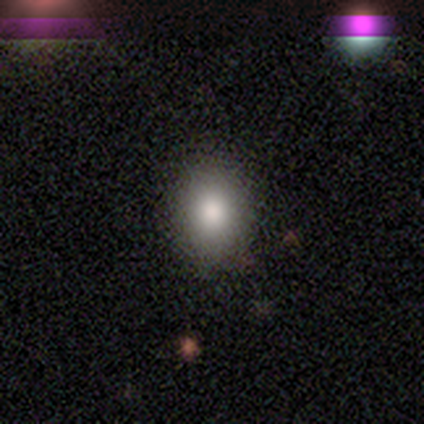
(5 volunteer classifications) A smooth galaxy with no disk features (100%) that is round (100%).

Vote fractions:
- Smooth or featured? smooth: 100% / featured or disk: 0% / star or artifact: 0%
- How rounded? round: 100% / in between: 0% / cigar-shaped: 0%
- Merging? none: 80% / minor disturbance: 20% / major disturbance: 0% / merger: 0%